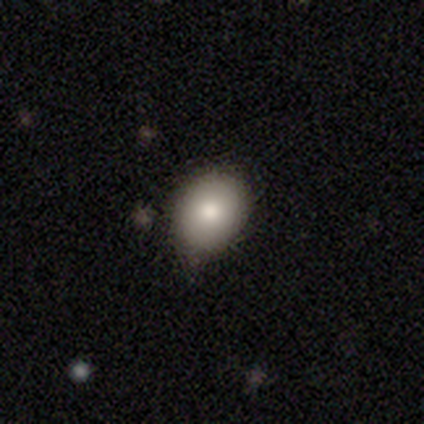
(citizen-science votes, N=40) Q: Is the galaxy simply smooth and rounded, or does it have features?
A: smooth — 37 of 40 (92%).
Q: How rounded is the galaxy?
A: in between — 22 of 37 (59%).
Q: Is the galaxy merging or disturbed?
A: none — 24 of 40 (60%).